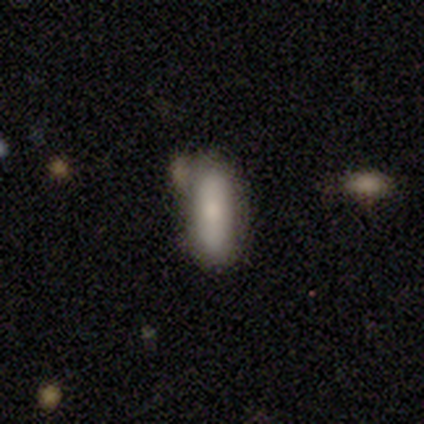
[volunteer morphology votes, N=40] smooth_or_featured: smooth (p=0.75) [alt: featured or disk p=0.17]
how_rounded: cigar-shaped (p=0.63) [alt: in between p=0.37]
merging: none (p=0.62) [alt: minor disturbance p=0.24]